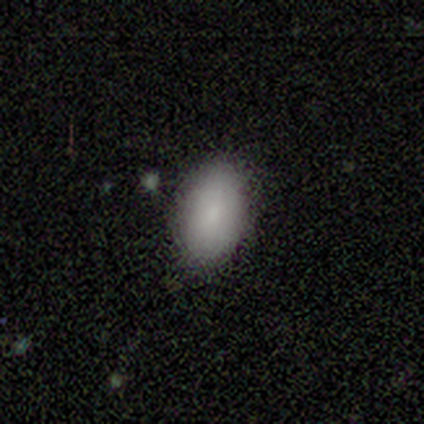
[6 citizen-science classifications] smooth-or-featured: smooth: 83% | star or artifact: 17% | featured or disk: 0%
  how-rounded: in between: 100% | round: 0% | cigar-shaped: 0%
  merging: none: 100% | minor disturbance: 0% | major disturbance: 0% | merger: 0%